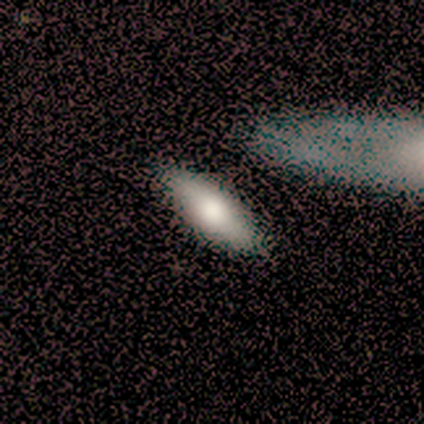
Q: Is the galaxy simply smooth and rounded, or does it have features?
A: smooth — 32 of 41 (78%).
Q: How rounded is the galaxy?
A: in between — 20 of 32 (62%).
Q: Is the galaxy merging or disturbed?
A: none — 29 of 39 (74%).